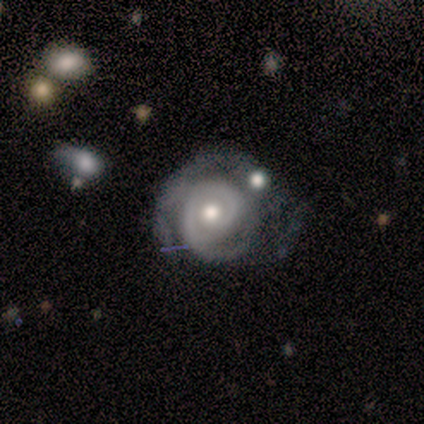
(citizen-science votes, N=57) smooth_or_featured: featured or disk (p=0.93) [alt: smooth p=0.04]
disk_edge_on: no (p=1.00)
bar: no (p=0.91) [alt: weak p=0.06]
has_spiral_arms: yes (p=1.00)
spiral_winding: tight (p=0.72) [alt: medium p=0.28]
spiral_arm_count: 2 (p=0.40) [alt: 1 p=0.32]
bulge_size: moderate (p=0.77) [alt: small p=0.13]
merging: none (p=0.35) [alt: major disturbance p=0.25]